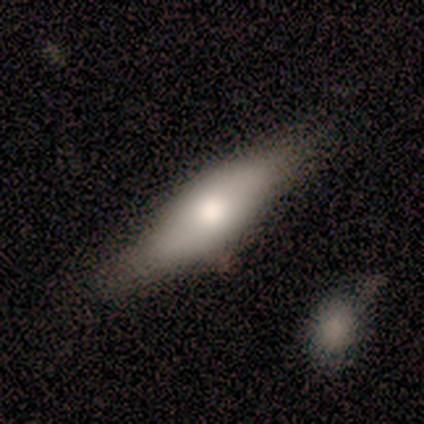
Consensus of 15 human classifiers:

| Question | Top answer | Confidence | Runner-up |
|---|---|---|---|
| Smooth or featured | smooth | 53% | featured or disk (33%) |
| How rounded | in between | 62% | cigar-shaped (38%) |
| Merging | none | 62% | minor disturbance (38%) |